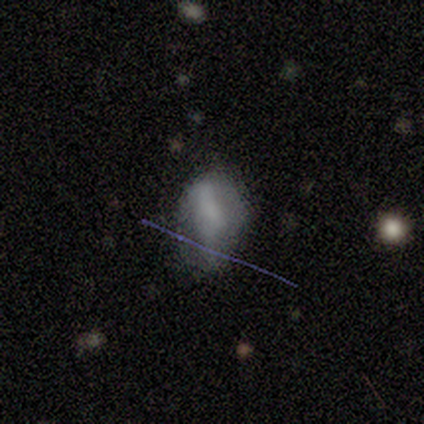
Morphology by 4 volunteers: A smooth galaxy with no disk features (50%, tied with featured or disk) that is in between round and cigar-shaped (100%). Merging: none (75%).